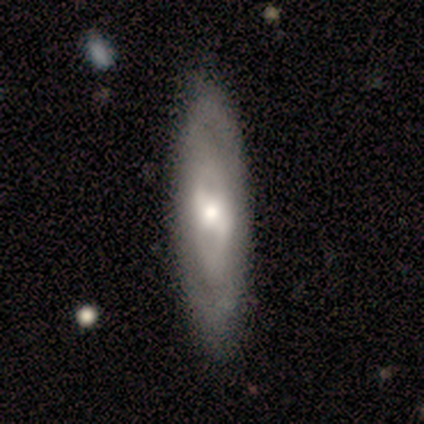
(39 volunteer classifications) Smooth or featured?
  - featured or disk: 69% *
  - smooth: 28%
  - star or artifact: 3%
Edge-on disk?
  - no: 85% *
  - yes: 15%
Bar?
  - weak: 57% *
  - strong: 26%
  - no: 17%
Spiral arms?
  - yes: 70% *
  - no: 30%
Spiral winding?
  - tight: 62% *
  - medium: 25%
  - loose: 12%
Spiral arm count?
  - 2: 62% *
  - can't tell: 38%
  - 1: 0%
  - 3: 0%
  - 4: 0%
  - more than 4: 0%
Bulge size?
  - moderate: 48% *
  - small: 30%
  - large: 17%
  - none: 4%
  - dominant: 0%
Merging?
  - none: 61% *
  - minor disturbance: 13%
  - major disturbance: 5%
  - merger: 0%